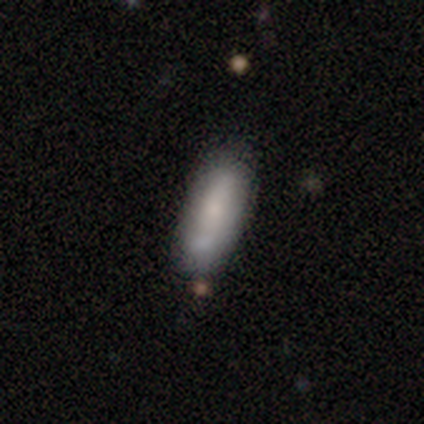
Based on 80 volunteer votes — Smooth or featured?
  - smooth: 69% *
  - featured or disk: 24%
  - star or artifact: 8%
How rounded?
  - in between: 60% *
  - cigar-shaped: 40%
  - round: 0%
Merging?
  - none: 62% *
  - minor disturbance: 30%
  - merger: 7%
  - major disturbance: 1%